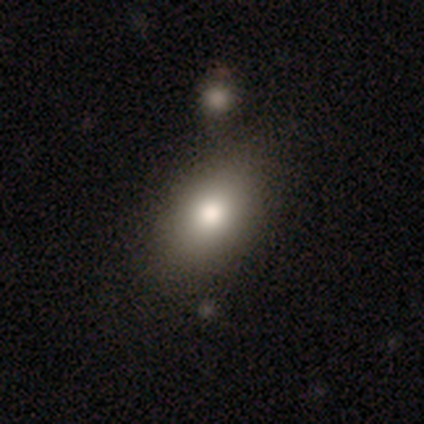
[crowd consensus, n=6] smooth-or-featured: smooth: 83% | star or artifact: 17% | featured or disk: 0%
  how-rounded: in between: 100% | round: 0% | cigar-shaped: 0%
  merging: none: 60% | minor disturbance: 20% | merger: 20% | major disturbance: 0%